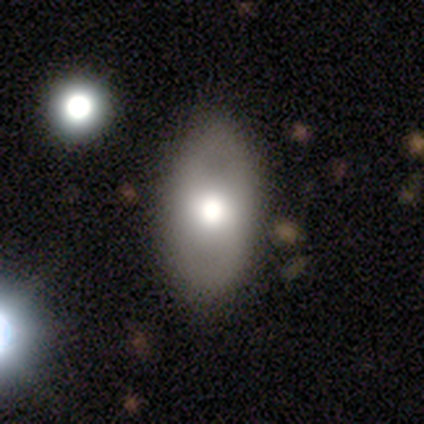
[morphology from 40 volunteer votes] Overall: smooth (52%; featured or disk 42%). How rounded: in between (100%). Merging: none (55%).